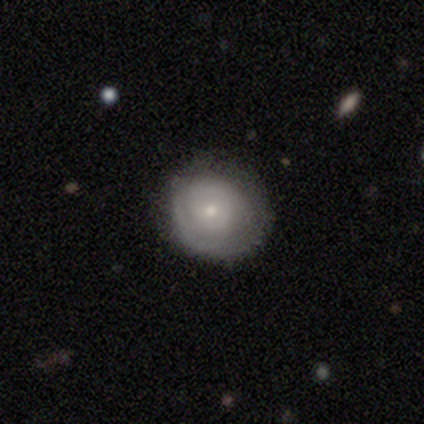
A featured or disk galaxy (100%) with no bar (100%), 1 (33%, tied with 2 and 3) tight (67%) spiral arms (60%) and a small central bulge (60%).

Vote fractions:
- Smooth or featured? featured or disk: 100% / smooth: 0% / star or artifact: 0%
- Edge-on disk? no: 100% / yes: 0%
- Bar? no: 100% / strong: 0% / weak: 0%
- Spiral arms? yes: 60% / no: 40%
- Spiral winding? tight: 67% / medium: 33% / loose: 0%
- Spiral arm count? 1: 33% (tied) / 2: 33% (tied) / 3: 33% (tied) / 4: 0% / more than 4: 0% / can't tell: 0%
- Bulge size? small: 60% / moderate: 40% / dominant: 0% / large: 0% / none: 0%
- Merging? none: 100% / minor disturbance: 0% / major disturbance: 0% / merger: 0%